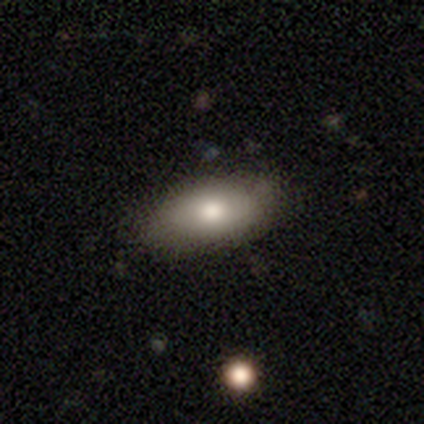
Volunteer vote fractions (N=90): Morphology: type=smooth (79%); roundness=in between (94%); merging=none (84%).